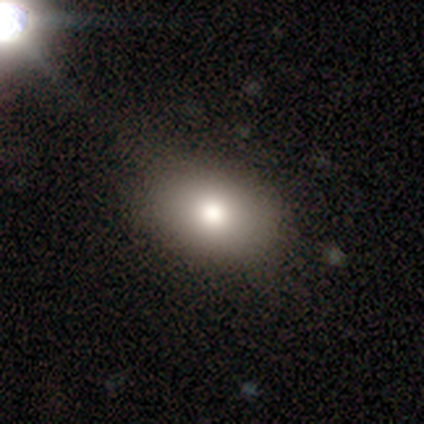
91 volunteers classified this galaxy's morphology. Smooth or featured? smooth (76%)
How rounded? in between (84%)
Merging? none (81%)